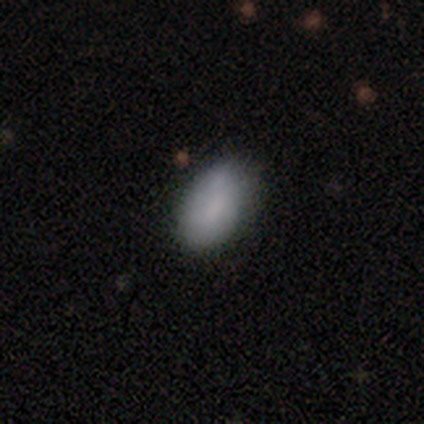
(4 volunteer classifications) smooth 50% (tied), featured or disk 50% (tied), star or artifact 0%. Down the decision tree: how rounded — in between (100%); merging — none (50%, tied with minor disturbance).